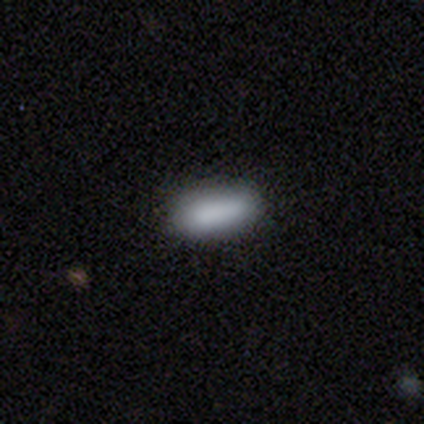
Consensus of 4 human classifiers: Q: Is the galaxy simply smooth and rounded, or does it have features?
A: smooth — 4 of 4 (100%).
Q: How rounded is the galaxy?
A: in between — 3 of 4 (75%).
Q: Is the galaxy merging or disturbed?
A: none — 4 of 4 (100%).